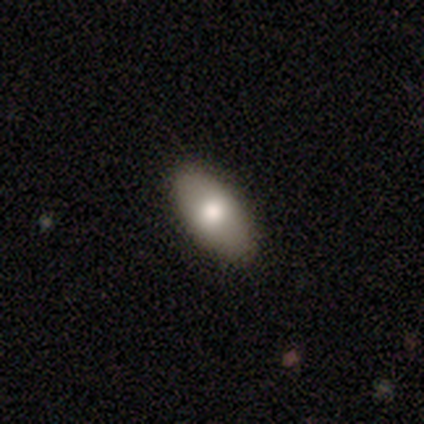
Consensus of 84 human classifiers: Morphology: type=smooth (77%); roundness=in between (97%); merging=none (91%).